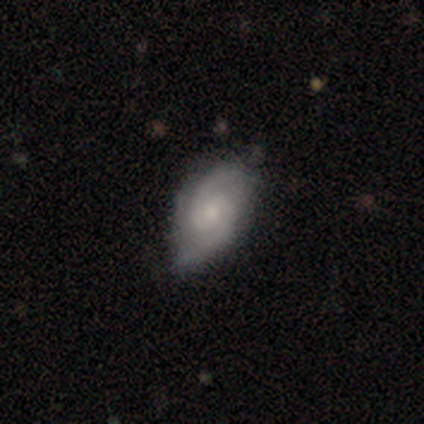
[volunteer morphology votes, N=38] Overall: featured or disk (87%). Edge-on disk: no (97%). Bar: no (66%; weak 34%). Spiral arms: yes (97%). Spiral arm count: 2 (94%). Spiral winding: medium (48%; tight 39%). Bulge size: small (62%; moderate 34%). Merging: none (41%; minor disturbance 14%).